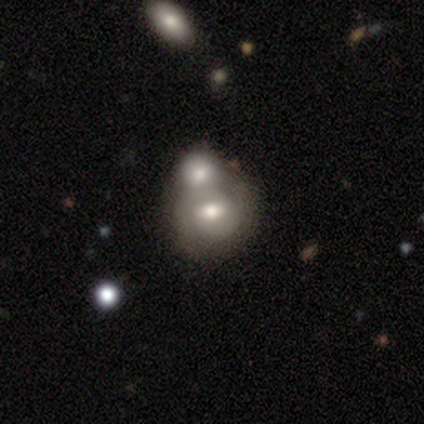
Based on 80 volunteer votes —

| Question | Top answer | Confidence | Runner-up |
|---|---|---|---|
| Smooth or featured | smooth | 49% | featured or disk (46%) |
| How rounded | round | 69% | in between (31%) |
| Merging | merger | 70% | none (16%) |